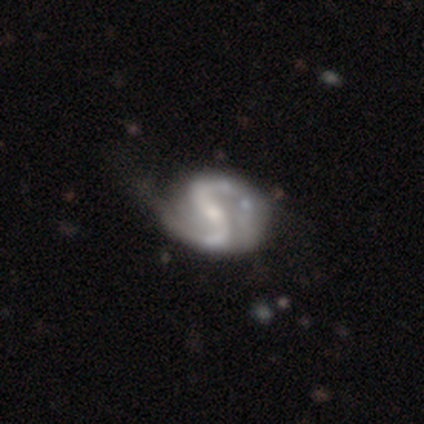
Overall: featured or disk (100%). Edge-on disk: no (100%). Bar: weak (60%; strong 40%). Spiral arms: yes (100%). Spiral arm count: 2 (100%). Spiral winding: medium (80%). Bulge size: moderate (60%; dominant 20%). Merging: minor disturbance (60%; none 40%).